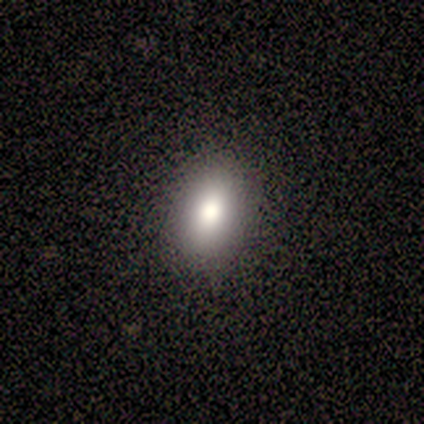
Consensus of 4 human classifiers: smooth-or-featured: smooth: 100% | featured or disk: 0% | star or artifact: 0%
  how-rounded: in between: 100% | round: 0% | cigar-shaped: 0%
  merging: none: 100% | minor disturbance: 0% | major disturbance: 0% | merger: 0%